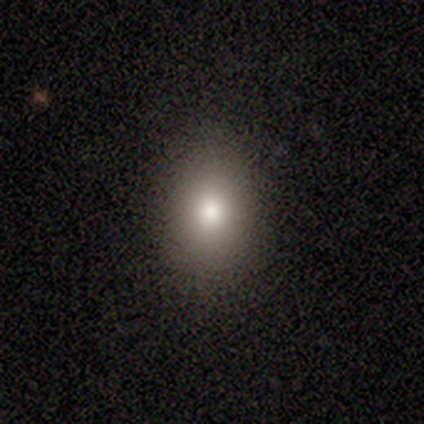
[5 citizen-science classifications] smooth_or_featured: smooth (p=0.80) [alt: star or artifact p=0.20]
how_rounded: in between (p=0.75) [alt: round p=0.25]
merging: none (p=1.00)